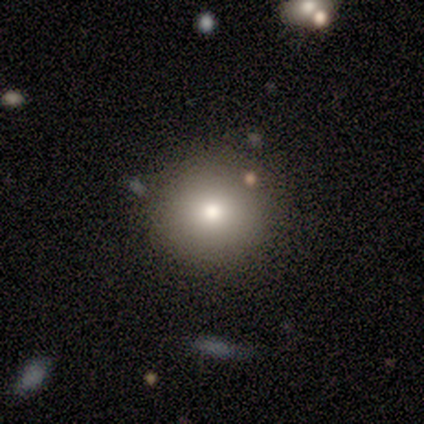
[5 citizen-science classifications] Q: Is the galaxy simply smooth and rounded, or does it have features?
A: smooth — 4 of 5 (80%).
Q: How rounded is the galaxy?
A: round — 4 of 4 (100%).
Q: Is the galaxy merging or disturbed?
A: none — 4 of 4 (100%).